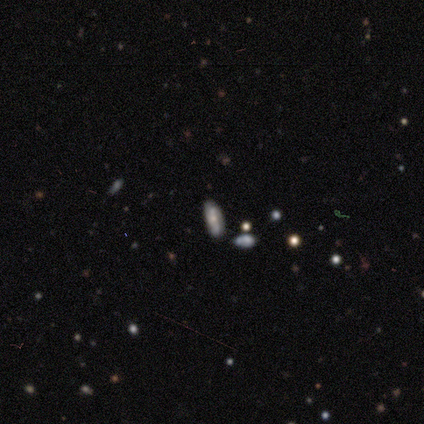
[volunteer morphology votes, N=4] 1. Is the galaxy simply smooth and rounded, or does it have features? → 50% smooth (tied), 50% featured or disk (tied), 0% star or artifact.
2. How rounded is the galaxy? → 100% in between, 0% round, 0% cigar-shaped.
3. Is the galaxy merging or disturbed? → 75% none, 25% minor disturbance, 0% major disturbance, 0% merger.